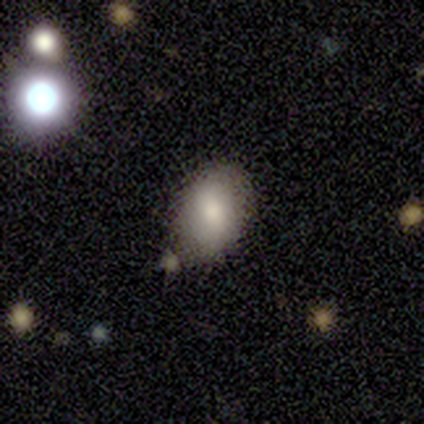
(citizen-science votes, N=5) Q: Smooth or featured?
A: smooth (100%)
Q: How rounded?
A: in between (100%)
Q: Merging?
A: none (60%); runner-up: minor disturbance (40%)